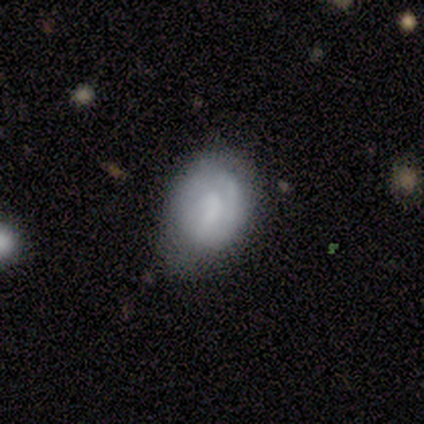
featured or disk 56%, smooth 44%, star or artifact 0%. Down the decision tree: edge-on disk — no (100%); bar — weak (60%); spiral arms — yes (80%); spiral arm count — can't tell (50%); spiral winding — tight (50%); bulge size — none (40%); merging — minor disturbance (56%).